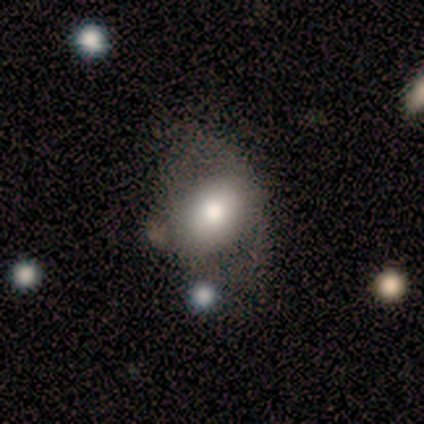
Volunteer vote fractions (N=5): Smooth or featured?
  - featured or disk: 80% *
  - smooth: 20%
  - star or artifact: 0%
Edge-on disk?
  - no: 100% *
  - yes: 0%
Bar?
  - no: 100% *
  - strong: 0%
  - weak: 0%
Spiral arms?
  - no: 100% *
  - yes: 0%
Bulge size?
  - large: 50% * (tied)
  - moderate: 50% * (tied)
  - dominant: 0%
  - small: 0%
  - none: 0%
Merging?
  - none: 40% * (tied)
  - major disturbance: 40% * (tied)
  - minor disturbance: 20%
  - merger: 0%